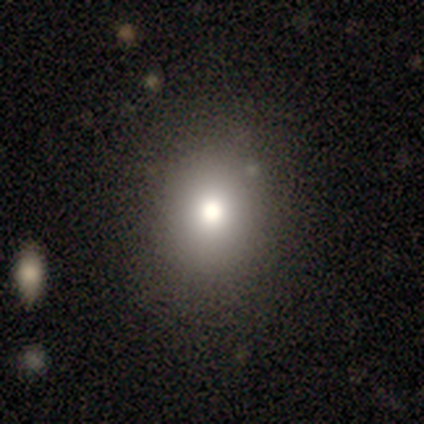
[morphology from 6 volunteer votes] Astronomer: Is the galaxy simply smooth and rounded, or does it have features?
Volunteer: smooth — 50% (runner-up: featured or disk, 33%).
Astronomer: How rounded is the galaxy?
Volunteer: round — 100%.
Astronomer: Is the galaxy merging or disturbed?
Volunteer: none — 100%.